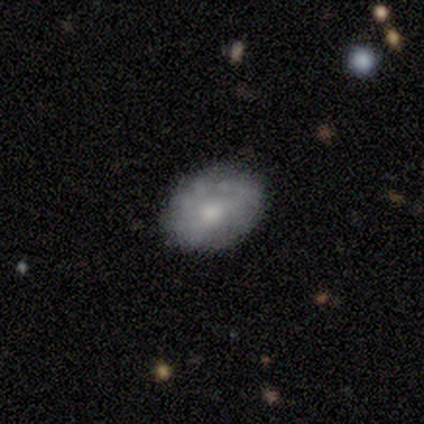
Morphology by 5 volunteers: type=smooth (60%); roundness=in between (100%); merging=none (100%).